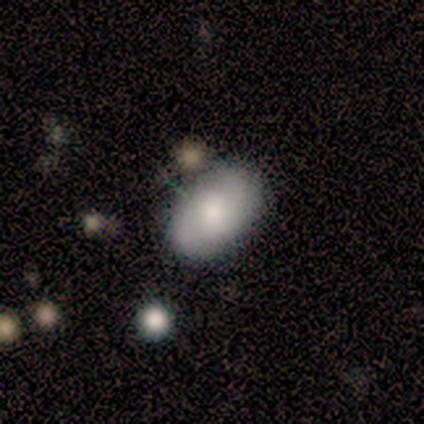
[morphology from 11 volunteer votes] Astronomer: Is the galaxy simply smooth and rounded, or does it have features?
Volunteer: smooth — 55% (runner-up: featured or disk, 45%).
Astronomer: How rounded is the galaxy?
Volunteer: in between — 100%.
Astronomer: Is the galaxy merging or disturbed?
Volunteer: none — 82%.